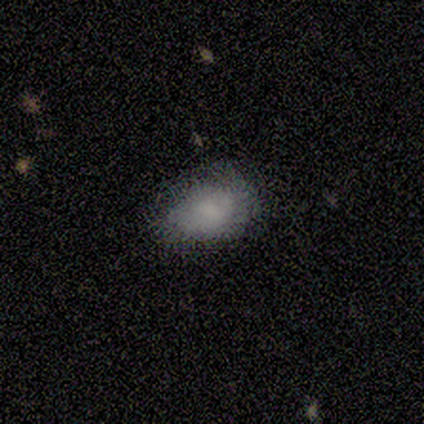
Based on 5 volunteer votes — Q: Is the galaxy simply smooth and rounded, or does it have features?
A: smooth — 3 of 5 (60%).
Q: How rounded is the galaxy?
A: in between — 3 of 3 (100%).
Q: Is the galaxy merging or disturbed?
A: none — 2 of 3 (67%).